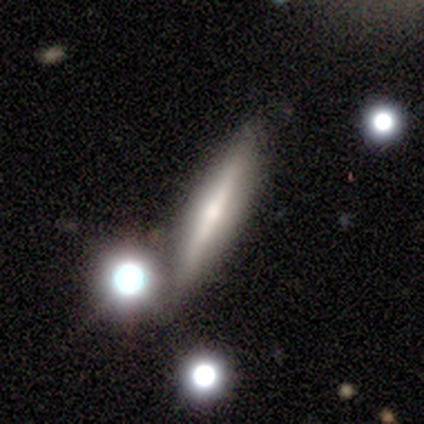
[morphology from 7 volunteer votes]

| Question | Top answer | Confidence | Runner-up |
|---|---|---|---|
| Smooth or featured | smooth | 57% | featured or disk (43%) |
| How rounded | round | 50% | tied: cigar-shaped (50%) |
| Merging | none | 71% | major disturbance (14%) |